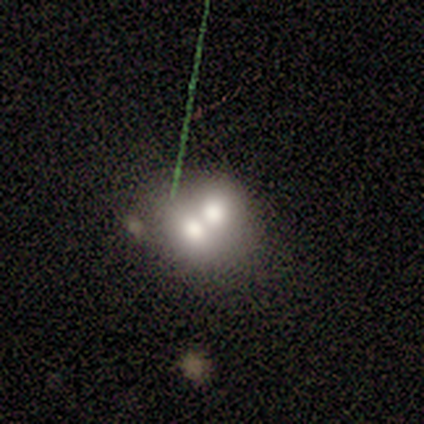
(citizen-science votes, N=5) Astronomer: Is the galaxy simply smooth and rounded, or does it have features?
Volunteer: smooth — 40%, tied with star or artifact at 40%.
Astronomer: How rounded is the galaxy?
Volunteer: round — 100%.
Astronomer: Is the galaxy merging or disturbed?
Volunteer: merger — 100%.